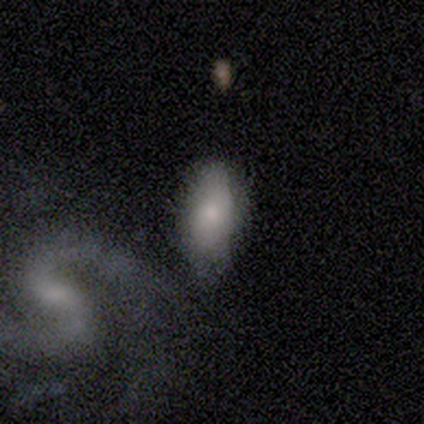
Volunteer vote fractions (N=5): Smooth or featured? smooth (60%)
How rounded? in between (100%)
Merging? minor disturbance (60%)